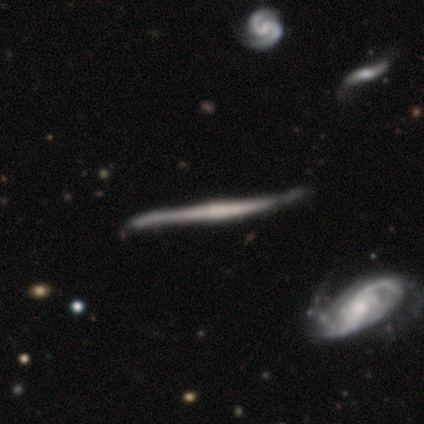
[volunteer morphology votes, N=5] Smooth or featured: featured or disk — 60% (smooth — 40%)
Edge-on disk: yes — 100%
Edge-on bulge: boxy — 33% (tied with none — 33%; rounded — 33%)
Merging: minor disturbance — 60% (none — 40%)